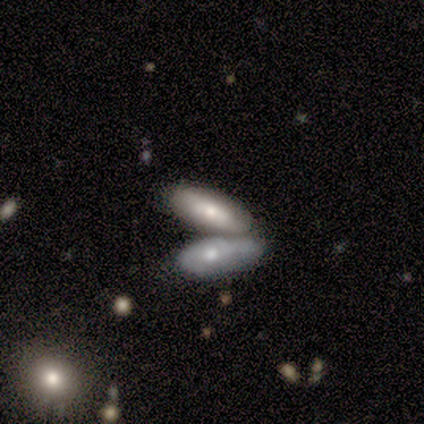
A smooth galaxy with no disk features (83%) that is in between round and cigar-shaped (60%).

Vote fractions:
- Smooth or featured? smooth: 83% / featured or disk: 17% / star or artifact: 0%
- How rounded? in between: 60% / cigar-shaped: 40% / round: 0%
- Merging? merger: 100% / none: 0% / minor disturbance: 0% / major disturbance: 0%